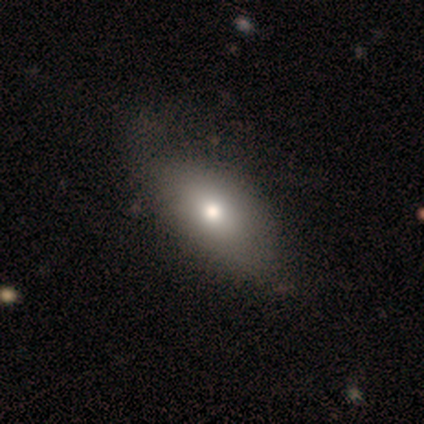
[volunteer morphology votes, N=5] Volunteers were most divided on "smooth or featured": smooth: 80%, featured or disk: 20%, star or artifact: 0%. More confident: how rounded — in between (100%); merging — none (80%).